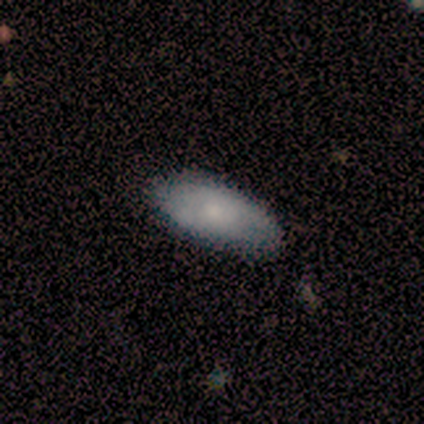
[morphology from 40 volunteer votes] A smooth galaxy with no disk features (65%) that is in between round and cigar-shaped (96%).

Vote fractions:
- Smooth or featured? smooth: 65% / featured or disk: 30% / star or artifact: 5%
- How rounded? in between: 96% / cigar-shaped: 4% / round: 0%
- Merging? none: 82% / minor disturbance: 16% / major disturbance: 3% / merger: 0%